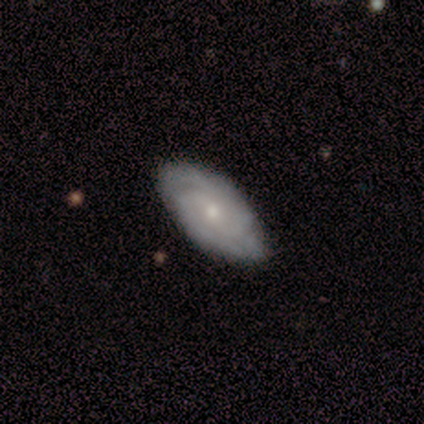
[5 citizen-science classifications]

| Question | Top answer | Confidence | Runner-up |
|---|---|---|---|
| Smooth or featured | featured or disk | 100% | — |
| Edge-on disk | no | 80% | yes (20%) |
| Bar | no | 75% | weak (25%) |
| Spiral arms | yes | 100% | — |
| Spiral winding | tight | 75% | medium (25%) |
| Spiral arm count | can't tell | 75% | 2 (25%) |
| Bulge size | moderate | 50% | tied: small (50%) |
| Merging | none | 100% | — |